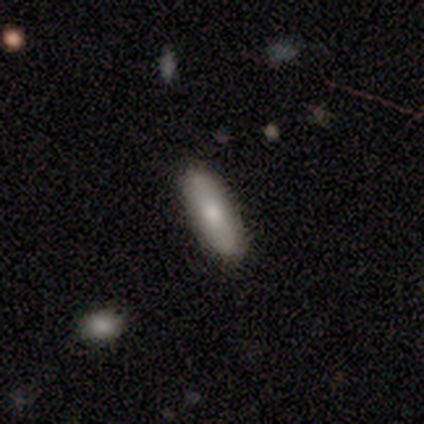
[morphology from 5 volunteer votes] This is clearly a smooth galaxy (80%). How rounded: possibly in between (50%, tied with cigar-shaped). Merging: clearly none (80%).